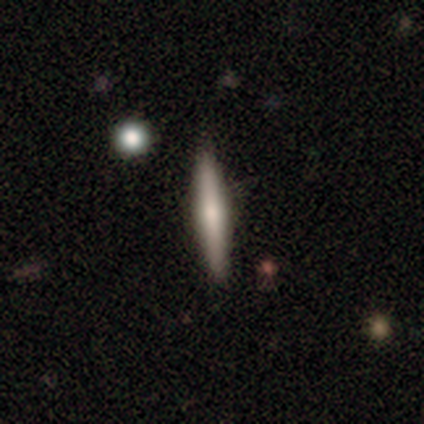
Morphology: type=smooth (60%); roundness=cigar-shaped (100%); merging=none (80%).